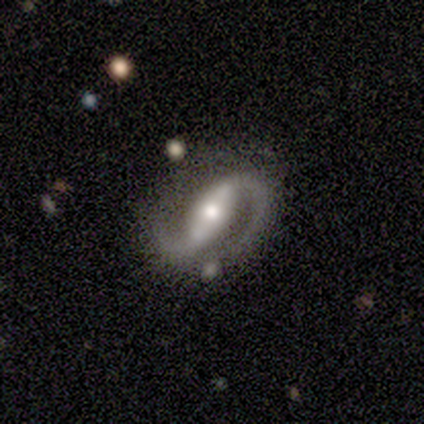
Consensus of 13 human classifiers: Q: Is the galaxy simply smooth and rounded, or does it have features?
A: featured or disk — 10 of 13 (77%).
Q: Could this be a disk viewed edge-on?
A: no — 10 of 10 (100%).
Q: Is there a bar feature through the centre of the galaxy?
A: strong — 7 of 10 (70%).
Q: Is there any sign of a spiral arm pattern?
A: yes — 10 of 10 (100%).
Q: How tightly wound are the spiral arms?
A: medium — 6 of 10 (60%).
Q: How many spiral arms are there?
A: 2 — 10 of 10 (100%).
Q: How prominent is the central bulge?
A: moderate — 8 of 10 (80%).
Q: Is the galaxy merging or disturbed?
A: none — 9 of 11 (82%).